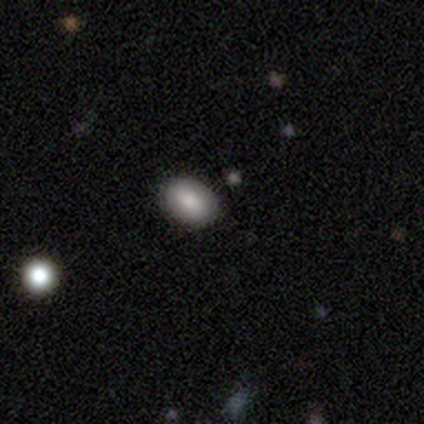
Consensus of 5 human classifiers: This appears to be a smooth galaxy with no disk features (60%) that is in between round and cigar-shaped (67%). Merging: none (67%).